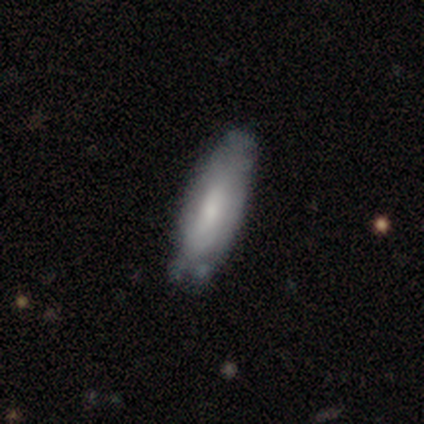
A smooth galaxy with no disk features (64%) that is in between round and cigar-shaped (63%).

Vote fractions:
- Smooth or featured? smooth: 64% / featured or disk: 32% / star or artifact: 4%
- How rounded? in between: 63% / cigar-shaped: 37% / round: 0%
- Merging? none: 30% / minor disturbance: 16% / merger: 4% / major disturbance: 1%